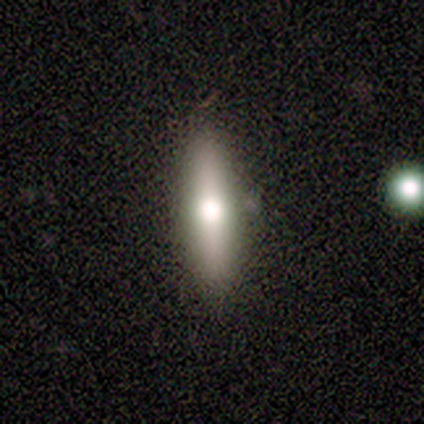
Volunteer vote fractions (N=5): Smooth or featured? 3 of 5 (60%) said smooth. How rounded? 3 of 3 (100%) said cigar-shaped. Merging? 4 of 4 (100%) said none.